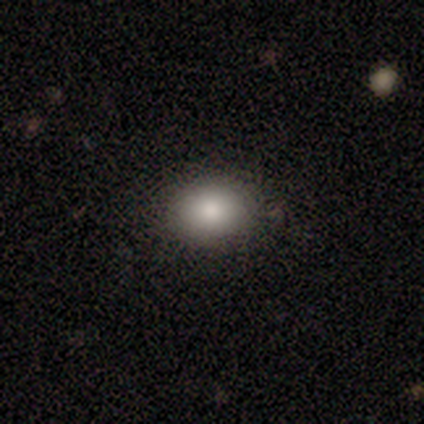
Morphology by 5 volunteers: Smooth or featured?
  - smooth: 100% *
  - featured or disk: 0%
  - star or artifact: 0%
How rounded?
  - round: 60% *
  - in between: 40%
  - cigar-shaped: 0%
Merging?
  - none: 100% *
  - minor disturbance: 0%
  - major disturbance: 0%
  - merger: 0%